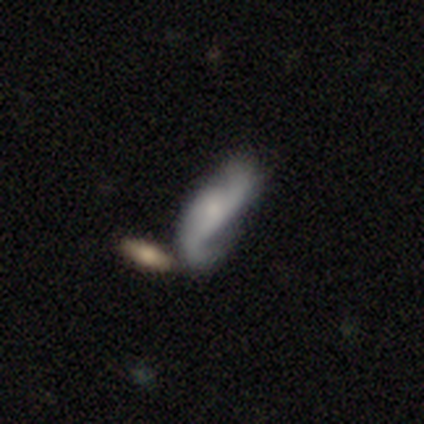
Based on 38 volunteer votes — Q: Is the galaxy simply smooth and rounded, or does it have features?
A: featured or disk — 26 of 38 (68%).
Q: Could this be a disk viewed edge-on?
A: no — 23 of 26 (88%).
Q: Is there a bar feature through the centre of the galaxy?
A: no — 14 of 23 (61%).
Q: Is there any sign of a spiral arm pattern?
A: yes — 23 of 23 (100%).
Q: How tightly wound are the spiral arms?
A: loose — 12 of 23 (52%).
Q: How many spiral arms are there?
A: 2 — 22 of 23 (96%).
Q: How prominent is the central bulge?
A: small — 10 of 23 (43%).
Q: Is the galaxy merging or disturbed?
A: none — 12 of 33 (36%).